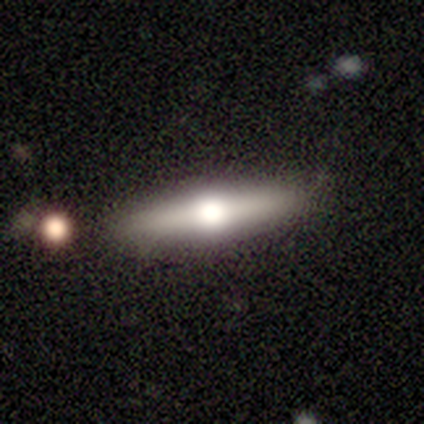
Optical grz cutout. It shows a smooth galaxy with no disk features (100%) that is cigar-shaped (100%). Merging: none (100%).